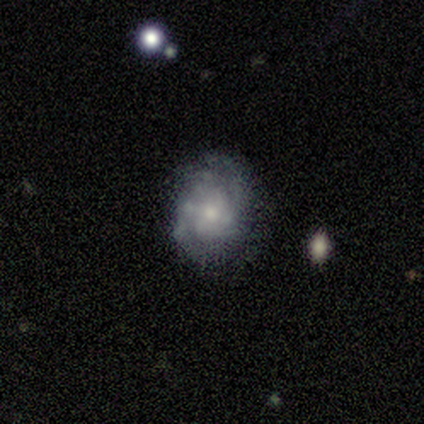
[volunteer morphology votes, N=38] Q: Smooth or featured?
A: featured or disk (66%); runner-up: smooth (24%)
Q: Edge-on disk?
A: no (100%)
Q: Bar?
A: no (72%); runner-up: weak (28%)
Q: Spiral arms?
A: yes (72%); runner-up: no (28%)
Q: Spiral winding?
A: tight (61%); runner-up: medium (33%)
Q: Spiral arm count?
A: 2 (44%); runner-up: can't tell (39%)
Q: Bulge size?
A: moderate (44%); tied with: small (44%)
Q: Merging?
A: none (79%); runner-up: minor disturbance (12%)